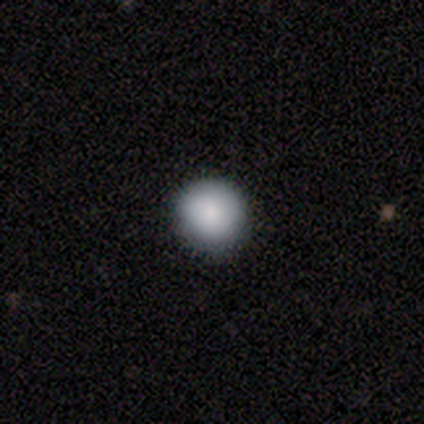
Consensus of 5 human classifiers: Smooth or featured: smooth — 100%
How rounded: round — 100%
Merging: none — 60% (minor disturbance — 40%)